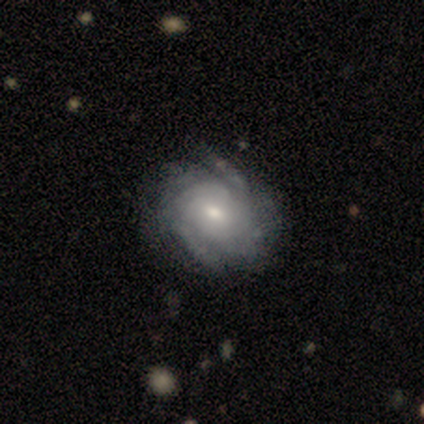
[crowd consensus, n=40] A featured or disk galaxy (95%) with no bar (76%), tight (75%) spiral arms (95%) and a moderate central bulge (55%). Merging: none (50%).